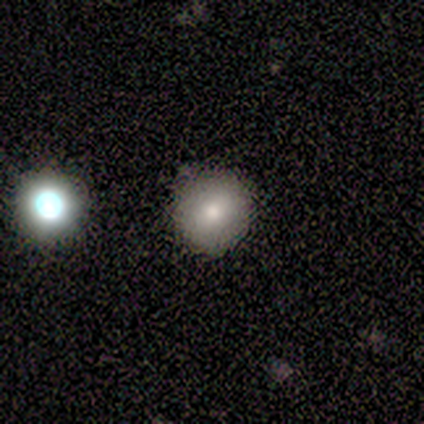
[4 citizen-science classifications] A smooth galaxy with no disk features (75%) that is round (67%).

Vote fractions:
- Smooth or featured? smooth: 75% / star or artifact: 25% / featured or disk: 0%
- How rounded? round: 67% / in between: 33% / cigar-shaped: 0%
- Merging? none: 100% / minor disturbance: 0% / major disturbance: 0% / merger: 0%